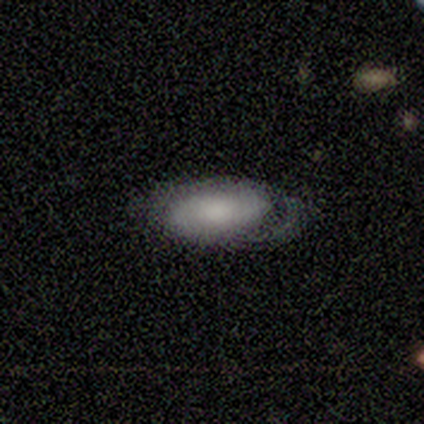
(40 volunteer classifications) smooth_or_featured: smooth (p=0.53) [alt: featured or disk p=0.38]
how_rounded: in between (p=0.86) [alt: cigar-shaped p=0.10]
merging: none (p=0.50) [alt: minor disturbance p=0.25]